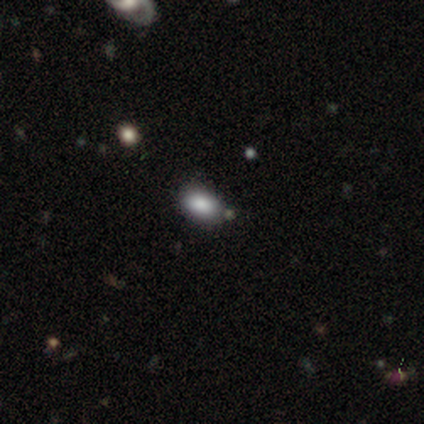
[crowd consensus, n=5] Q: Smooth or featured?
A: smooth (100%)
Q: How rounded?
A: in between (100%)
Q: Merging?
A: none (80%); runner-up: minor disturbance (20%)